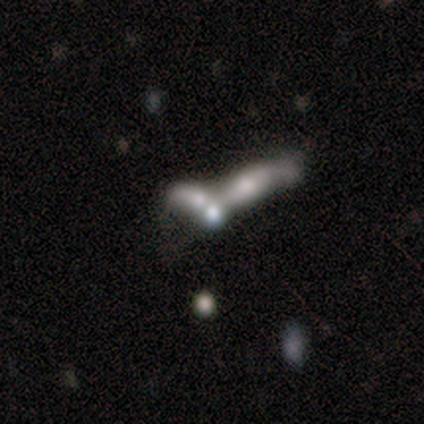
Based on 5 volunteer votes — Volunteers were most divided on "bulge size" (3-way tie): large: 33%, moderate: 33%, small: 33%, dominant: 0%, none: 0%. More confident: edge-on disk — no (100%); bar — no (100%); spiral arms — no (100%); merging — merger (75%); smooth or featured — featured or disk (60%).